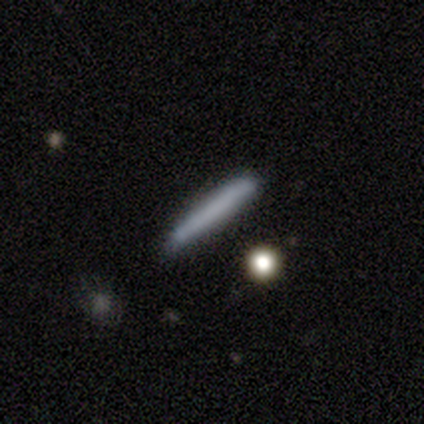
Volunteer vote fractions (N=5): A smooth galaxy with no disk features (80%) that is cigar-shaped (100%).

Vote fractions:
- Smooth or featured? smooth: 80% / featured or disk: 20% / star or artifact: 0%
- How rounded? cigar-shaped: 100% / round: 0% / in between: 0%
- Merging? none: 80% / minor disturbance: 20% / major disturbance: 0% / merger: 0%